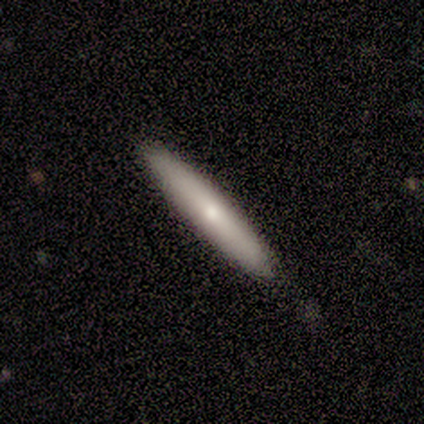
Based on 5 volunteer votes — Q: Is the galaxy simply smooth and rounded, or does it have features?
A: smooth — 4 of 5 (80%).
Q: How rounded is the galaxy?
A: cigar-shaped — 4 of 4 (100%).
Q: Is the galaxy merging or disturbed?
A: none — 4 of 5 (80%).